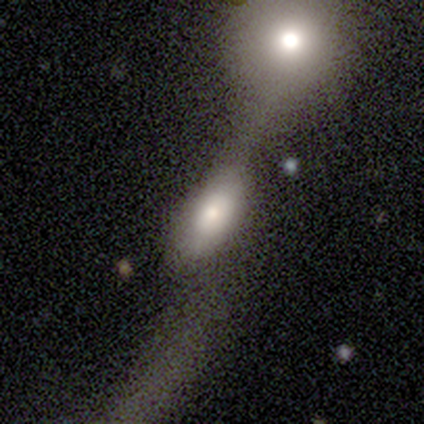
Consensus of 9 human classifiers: Overall: smooth (78%). How rounded: in between (100%). Merging: minor disturbance (38%, tied with major disturbance).